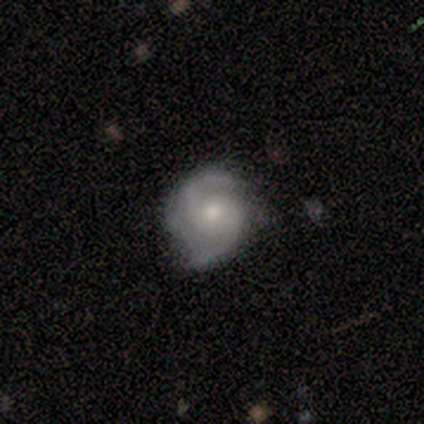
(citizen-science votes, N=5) Smooth or featured? 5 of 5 (100%) said featured or disk. Edge-on disk? 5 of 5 (100%) said no. Bar? 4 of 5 (80%) said no. Spiral arms? 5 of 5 (100%) said yes. Spiral winding? 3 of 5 (60%) said tight. Spiral arm count? 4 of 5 (80%) said 2. Bulge size? 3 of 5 (60%) said moderate. Merging? 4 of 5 (80%) said none.